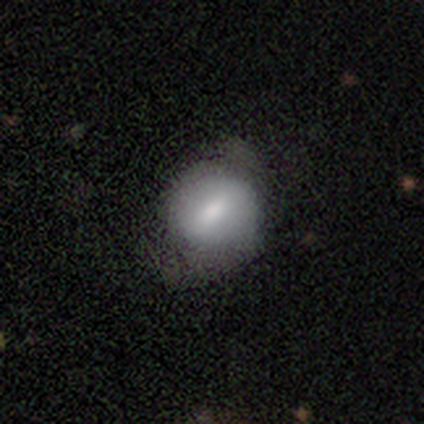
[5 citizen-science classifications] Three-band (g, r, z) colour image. It shows a smooth galaxy with no disk features (80%) that is round (100%). Merging: minor disturbance (60%).